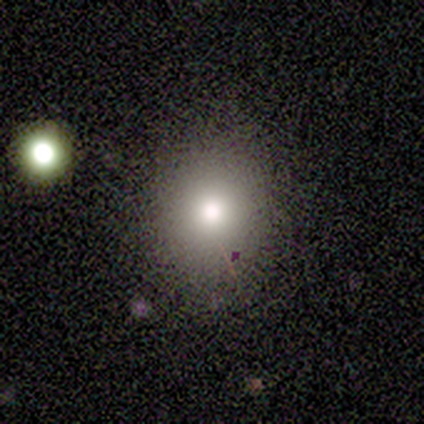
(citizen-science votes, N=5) Smooth or featured: smooth — 60% (featured or disk — 40%)
How rounded: round — 67% (in between — 33%)
Merging: none — 100%